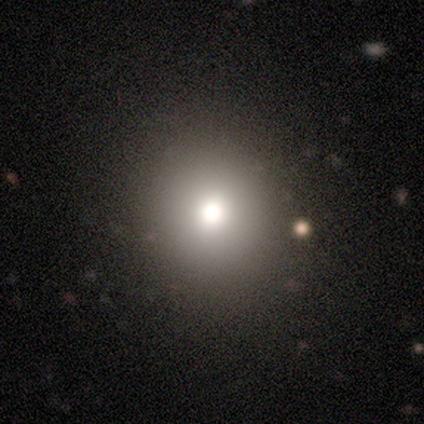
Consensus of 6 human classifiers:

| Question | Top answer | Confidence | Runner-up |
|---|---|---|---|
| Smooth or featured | smooth | 33% | tied: featured or disk (33%), star or artifact (33%) |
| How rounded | round | 100% | — |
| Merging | none | 100% | — |